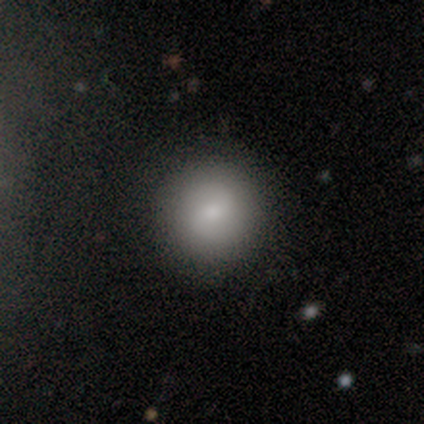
This appears to be a smooth galaxy with no disk features (65%) that is round (92%). Merging: none (50%).